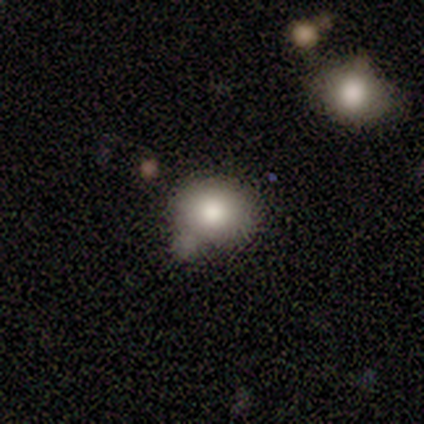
Overall: smooth (100%). How rounded: round (60%; in between 40%). Merging: minor disturbance (60%; none 20%).